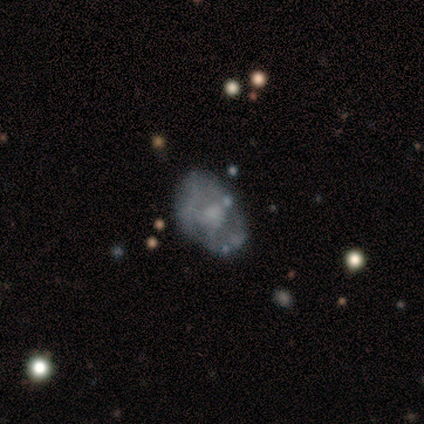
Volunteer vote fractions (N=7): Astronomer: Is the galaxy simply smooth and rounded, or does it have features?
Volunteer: featured or disk — 57% (runner-up: smooth, 43%).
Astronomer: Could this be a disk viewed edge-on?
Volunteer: no — 100%.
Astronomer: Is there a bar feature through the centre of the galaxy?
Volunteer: no — 75%.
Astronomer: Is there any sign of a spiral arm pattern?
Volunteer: no — 75%.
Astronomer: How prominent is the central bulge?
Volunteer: moderate — 50%.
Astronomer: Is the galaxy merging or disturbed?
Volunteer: none — 57% (runner-up: minor disturbance, 43%).